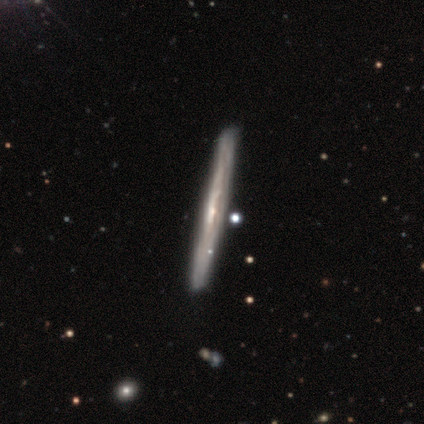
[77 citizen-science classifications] Q: Smooth or featured?
A: featured or disk (78%); runner-up: smooth (19%)
Q: Edge-on disk?
A: yes (98%); runner-up: no (2%)
Q: Edge-on bulge?
A: none (69%); runner-up: rounded (24%)
Q: Merging?
A: none (77%); runner-up: minor disturbance (8%)